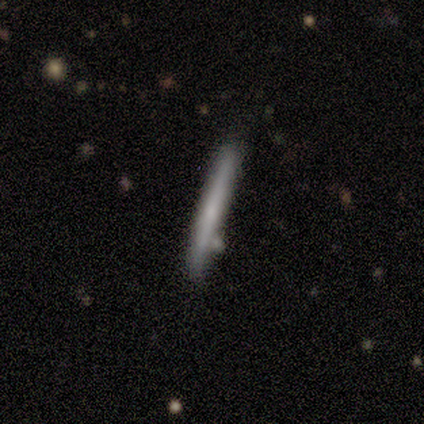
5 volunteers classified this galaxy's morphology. Smooth or featured: smooth — 60% (featured or disk — 40%)
How rounded: cigar-shaped — 100%
Merging: none — 40% (tied with minor disturbance — 40%)